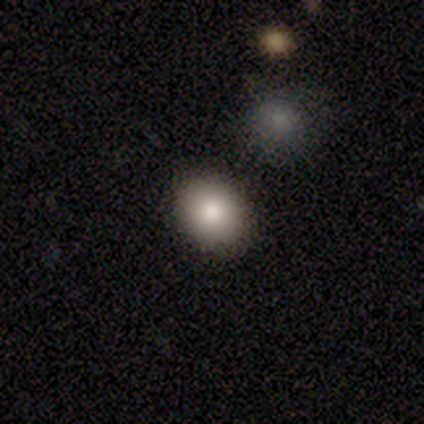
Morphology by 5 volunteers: Smooth or featured? 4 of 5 (80%) said smooth. How rounded? 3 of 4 (75%) said round. Merging? 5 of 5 (100%) said none.